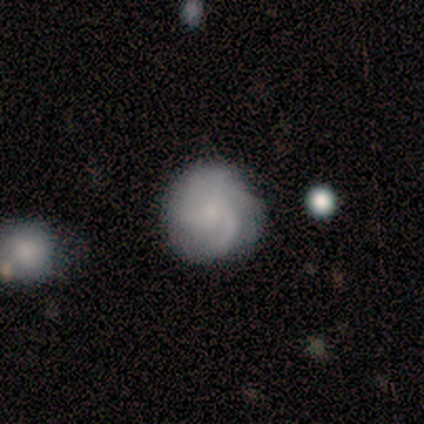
Overall: smooth (50%, tied with featured or disk). How rounded: round (100%). Merging: none (100%).